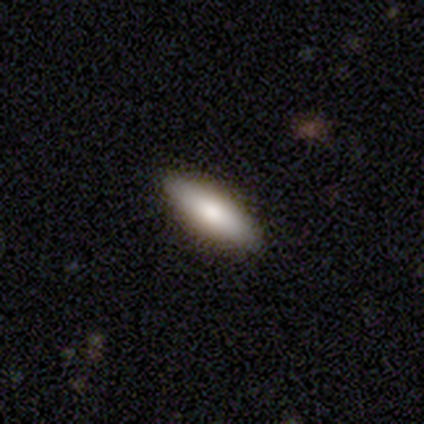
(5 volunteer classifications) A smooth galaxy with no disk features (100%) that is cigar-shaped (60%). Merging: none (100%).